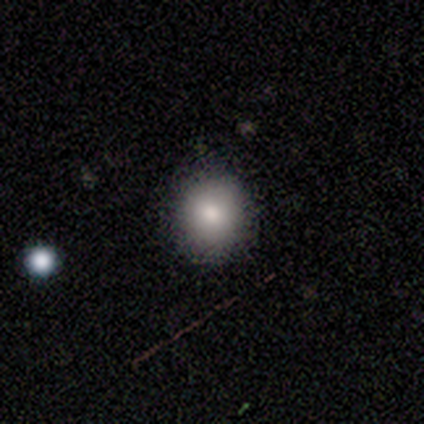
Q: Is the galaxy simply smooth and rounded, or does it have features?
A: smooth — 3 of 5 (60%).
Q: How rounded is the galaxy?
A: round — 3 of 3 (100%).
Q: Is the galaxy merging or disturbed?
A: none — 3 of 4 (75%).